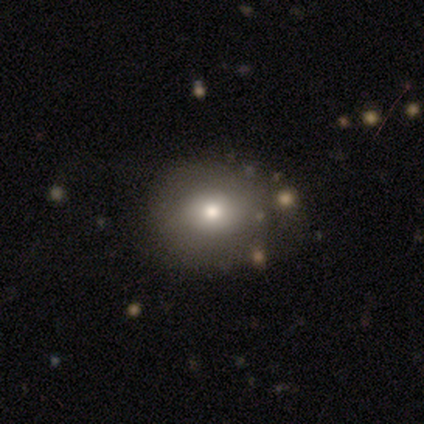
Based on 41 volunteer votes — A smooth galaxy with no disk features (85%) that is round (71%).

Vote fractions:
- Smooth or featured? smooth: 85% / featured or disk: 7% / star or artifact: 7%
- How rounded? round: 71% / in between: 29% / cigar-shaped: 0%
- Merging? none: 84% / minor disturbance: 13% / major disturbance: 3% / merger: 0%